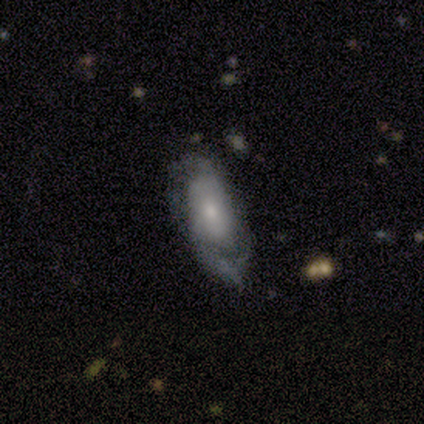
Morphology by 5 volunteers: Volunteers were most divided on "smooth or featured" (2-way tie): smooth: 40%, featured or disk: 40%, star or artifact: 20%. More confident: how rounded — in between (100%); merging — none (75%).